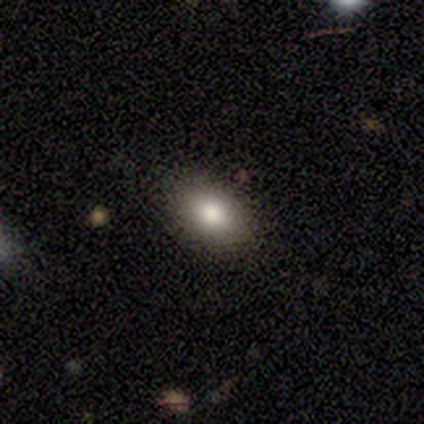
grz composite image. It shows a smooth galaxy with no disk features (100%) that is in between round and cigar-shaped (75%). Merging: none (100%).